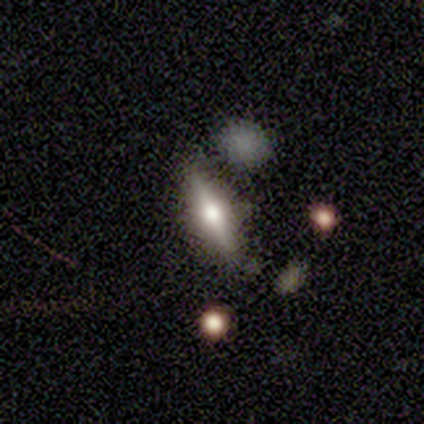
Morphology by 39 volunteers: This is possibly a featured or disk galaxy (56%). It is clearly viewed edge-on (86%). Edge-on bulge: clearly rounded (95%). Merging: likely none (76%).